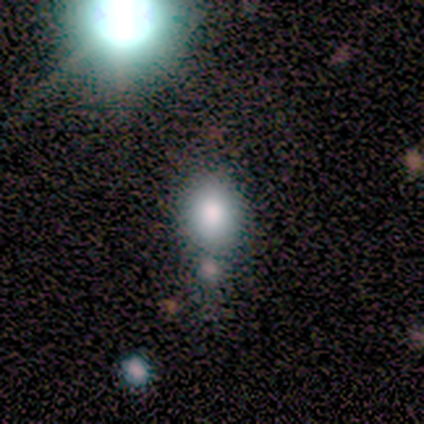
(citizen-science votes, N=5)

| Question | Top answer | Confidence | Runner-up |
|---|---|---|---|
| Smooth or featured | smooth | 80% | star or artifact (20%) |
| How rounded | in between | 75% | round (25%) |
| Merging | minor disturbance | 50% | tied: merger (50%) |